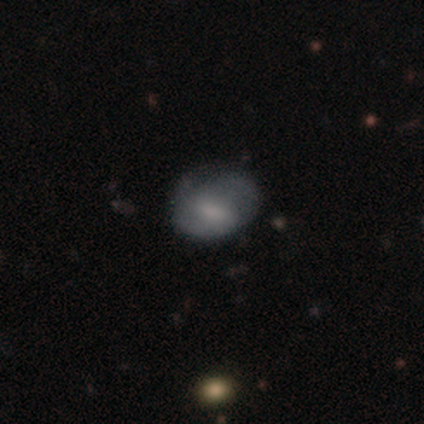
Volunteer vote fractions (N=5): A smooth galaxy with no disk features (60%) that is in between round and cigar-shaped (67%).

Vote fractions:
- Smooth or featured? smooth: 60% / featured or disk: 40% / star or artifact: 0%
- How rounded? in between: 67% / round: 33% / cigar-shaped: 0%
- Merging? minor disturbance: 40% (tied) / major disturbance: 40% (tied) / none: 20% / merger: 0%